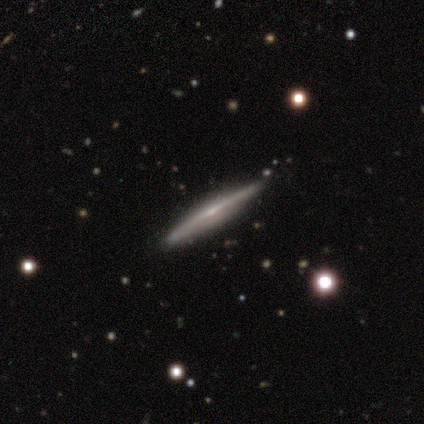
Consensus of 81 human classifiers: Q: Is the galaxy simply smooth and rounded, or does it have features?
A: featured or disk — 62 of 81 (77%).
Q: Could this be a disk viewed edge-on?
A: yes — 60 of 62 (97%).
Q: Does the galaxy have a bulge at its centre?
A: rounded — 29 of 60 (48%).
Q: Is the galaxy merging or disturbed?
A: none — 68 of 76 (89%).